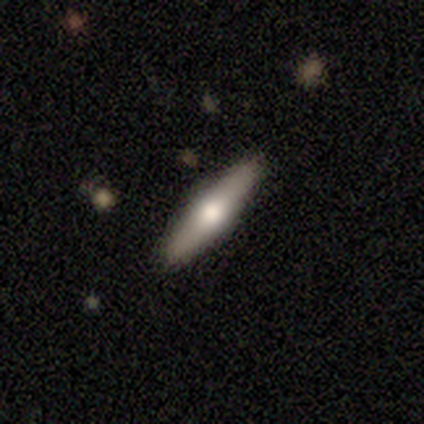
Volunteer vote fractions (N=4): Smooth or featured?
  - featured or disk: 75% *
  - smooth: 25%
  - star or artifact: 0%
Edge-on disk?
  - yes: 100% *
  - no: 0%
Edge-on bulge?
  - rounded: 67% *
  - none: 33%
  - boxy: 0%
Merging?
  - none: 100% *
  - minor disturbance: 0%
  - major disturbance: 0%
  - merger: 0%